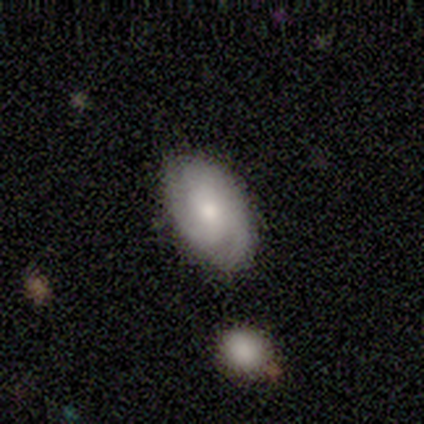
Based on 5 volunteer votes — smooth-or-featured: featured or disk: 100% | smooth: 0% | star or artifact: 0%
  disk-edge-on: no: 100% | yes: 0%
    bar: no: 80% | weak: 20% | strong: 0%
    has-spiral-arms: yes: 100% | no: 0%
      spiral-winding: medium: 80% | tight: 20% | loose: 0%
      spiral-arm-count: 3: 60% | can't tell: 40% | 1: 0% | 2: 0% | 4: 0% | more than 4: 0%
    bulge-size: moderate: 60% | small: 40% | dominant: 0% | large: 0% | none: 0%
  merging: none: 100% | minor disturbance: 0% | major disturbance: 0% | merger: 0%